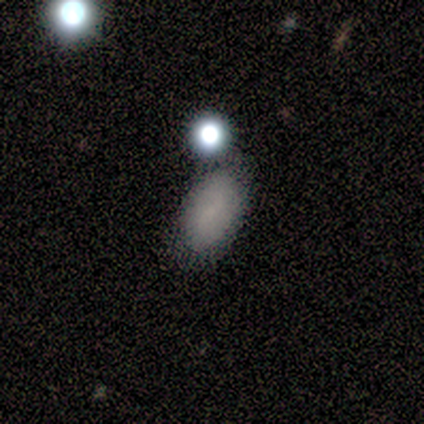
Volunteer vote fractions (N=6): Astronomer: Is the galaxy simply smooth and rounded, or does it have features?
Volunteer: smooth — 67%.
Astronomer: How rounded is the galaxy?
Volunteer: in between — 100%.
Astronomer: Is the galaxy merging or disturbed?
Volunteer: none — 100%.